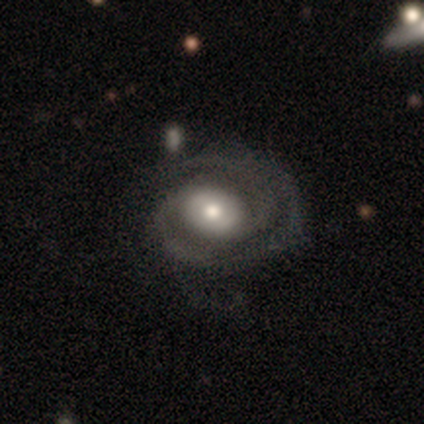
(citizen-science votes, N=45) Overall: featured or disk (84%). Edge-on disk: no (97%). Bar: no (62%; weak 24%). Spiral arms: yes (89%). Spiral arm count: 2 (70%). Spiral winding: medium (55%; tight 36%). Bulge size: moderate (57%; large 22%). Merging: none (52%; minor disturbance 26%).